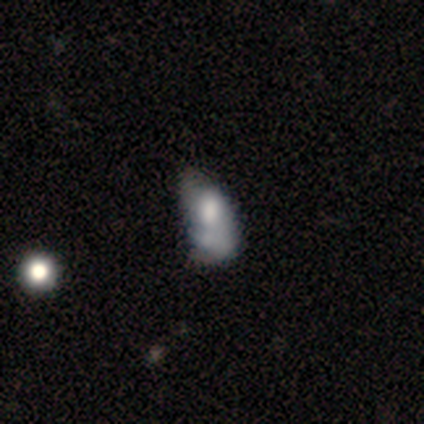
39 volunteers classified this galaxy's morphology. Overall: featured or disk (51%; smooth 44%). Edge-on disk: no (100%). Bar: no (70%). Spiral arms: no (60%; yes 40%). Bulge size: large (45%; moderate 20%). Merging: minor disturbance (27%; none 24%).